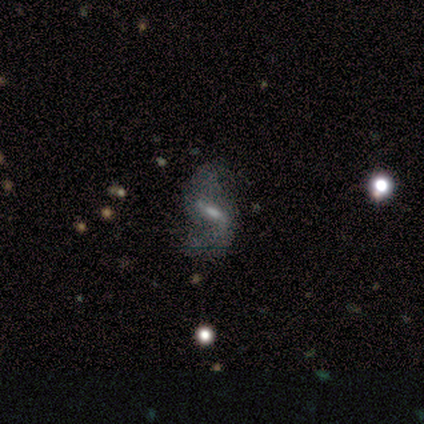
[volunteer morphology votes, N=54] A featured or disk galaxy (80%) with a strong bar (41%, tied with weak), 2 (86%) loose (76%) spiral arms (90%) and a moderate central bulge (37%). Merging: none (61%).